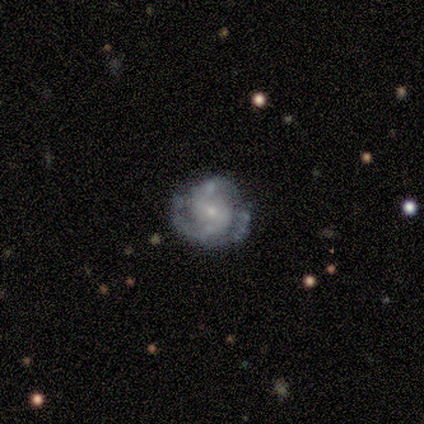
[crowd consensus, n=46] A featured or disk galaxy (80%) with a weak bar (46%), 2 (53%) tight (53%) spiral arms (86%) and a small central bulge (57%). Merging: none (57%).